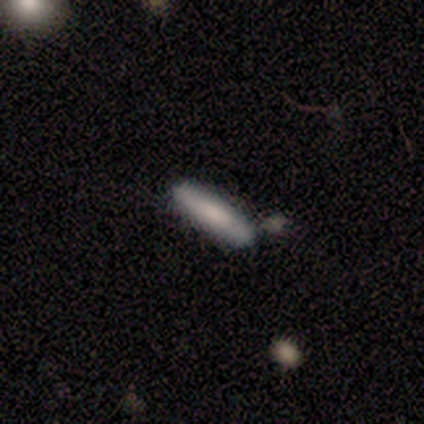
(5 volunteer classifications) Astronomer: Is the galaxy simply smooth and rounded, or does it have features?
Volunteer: smooth — 100%.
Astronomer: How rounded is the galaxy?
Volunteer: cigar-shaped — 80%.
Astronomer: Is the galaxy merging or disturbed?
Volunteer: none — 40%, tied with minor disturbance at 40%.